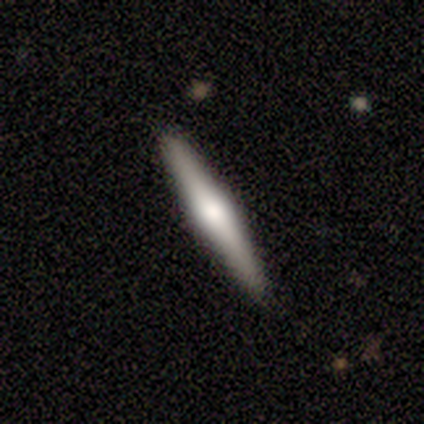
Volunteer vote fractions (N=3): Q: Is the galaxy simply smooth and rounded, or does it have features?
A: featured or disk — 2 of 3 (67%).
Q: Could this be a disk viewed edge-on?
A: yes — 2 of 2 (100%).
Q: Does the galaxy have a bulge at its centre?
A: rounded — 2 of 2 (100%).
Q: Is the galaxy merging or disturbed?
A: none — 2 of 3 (67%).